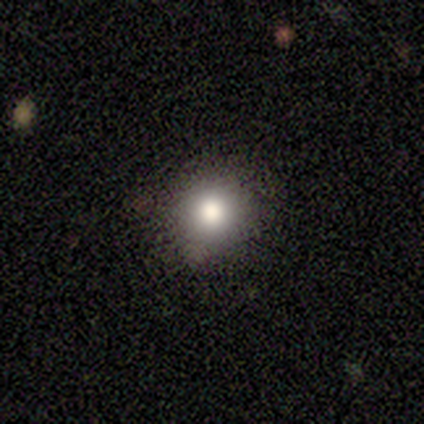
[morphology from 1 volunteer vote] A smooth galaxy with no disk features (100%) that is round (100%).

Vote fractions:
- Smooth or featured? smooth: 100% / featured or disk: 0% / star or artifact: 0%
- How rounded? round: 100% / in between: 0% / cigar-shaped: 0%
- Merging? minor disturbance: 100% / none: 0% / major disturbance: 0% / merger: 0%